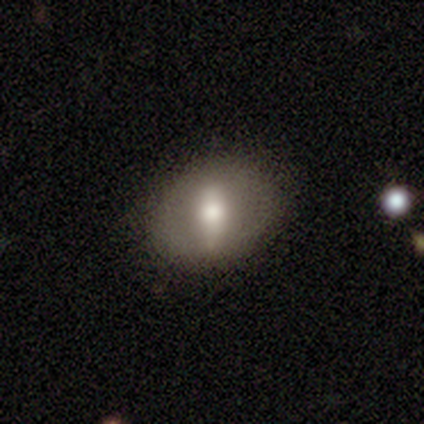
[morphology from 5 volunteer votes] A smooth galaxy with no disk features (60%) that is in between round and cigar-shaped (67%).

Vote fractions:
- Smooth or featured? smooth: 60% / featured or disk: 20% / star or artifact: 20%
- How rounded? in between: 67% / round: 33% / cigar-shaped: 0%
- Merging? minor disturbance: 75% / none: 25% / major disturbance: 0% / merger: 0%